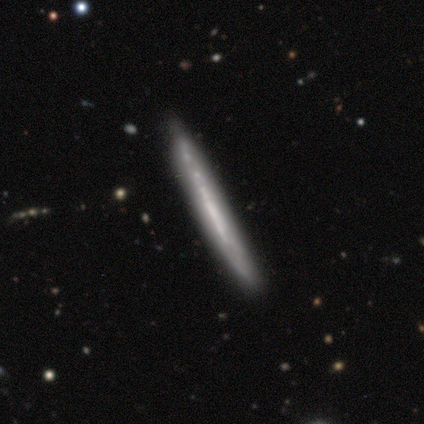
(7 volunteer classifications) smooth_or_featured: featured or disk (p=0.86) [alt: smooth p=0.14]
disk_edge_on: yes (p=0.83) [alt: no p=0.17]
edge_on_bulge: none (p=1.00)
merging: none (p=0.71) [alt: minor disturbance p=0.29]